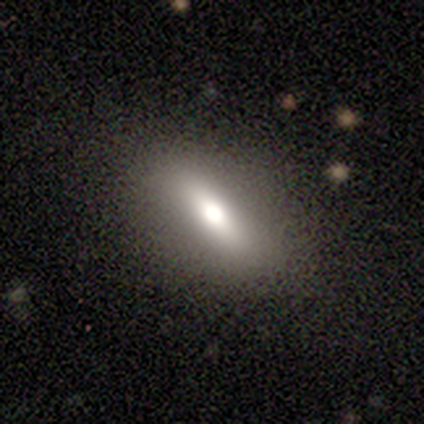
This is likely a smooth galaxy (75%). How rounded: clearly in between (100%). Merging: clearly none (100%).